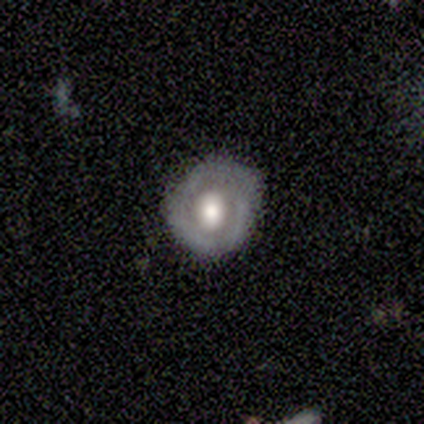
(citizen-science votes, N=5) smooth_or_featured: featured or disk (p=0.80) [alt: smooth p=0.20]
disk_edge_on: no (p=0.75) [alt: yes p=0.25]
bar: no (p=1.00)
has_spiral_arms: yes (p=0.67) [alt: no p=0.33]
spiral_winding: tight (p=0.50) [tied with: loose p=0.50]
spiral_arm_count: 3 (p=0.50) [tied with: can't tell p=0.50]
bulge_size: dominant (p=0.33) [tied with: large p=0.33, moderate p=0.33]
merging: none (p=1.00)